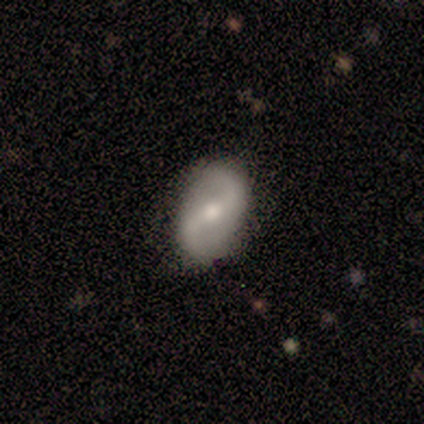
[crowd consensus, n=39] Smooth or featured: featured or disk — 85% (smooth — 15%)
Edge-on disk: no — 97% (yes — 3%)
Bar: weak — 53% (strong — 31%)
Spiral arms: yes — 91% (no — 9%)
Spiral winding: loose — 62% (medium — 28%)
Spiral arm count: 2 — 100%
Bulge size: moderate — 81% (small — 16%)
Merging: none — 77% (minor disturbance — 23%)